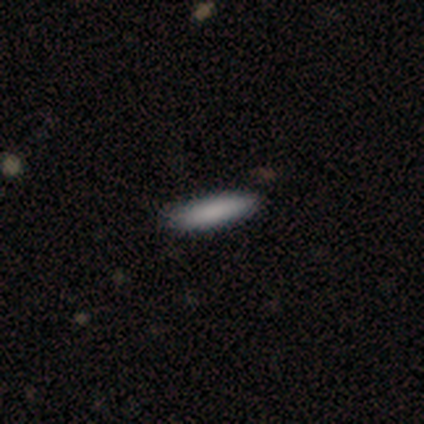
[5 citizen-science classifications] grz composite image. It shows a smooth galaxy with no disk features (60%) that is in between round and cigar-shaped (67%). Merging: none (75%).